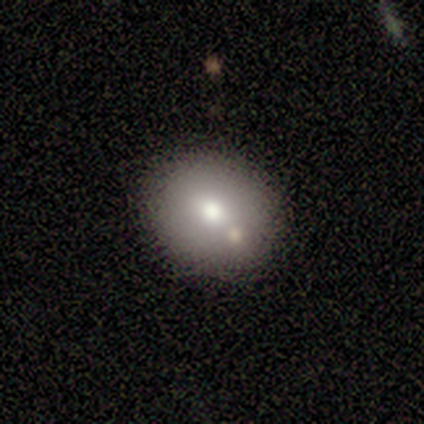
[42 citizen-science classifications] Smooth or featured: smooth — 74% (featured or disk — 21%)
How rounded: round — 71% (in between — 29%)
Merging: none — 82% (merger — 10%)